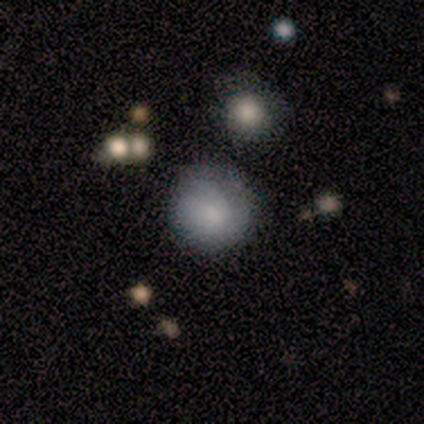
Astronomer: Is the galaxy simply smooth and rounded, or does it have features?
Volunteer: smooth — 72%.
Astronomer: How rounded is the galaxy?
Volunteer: round — 96%.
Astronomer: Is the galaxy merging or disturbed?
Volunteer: none — 92%.